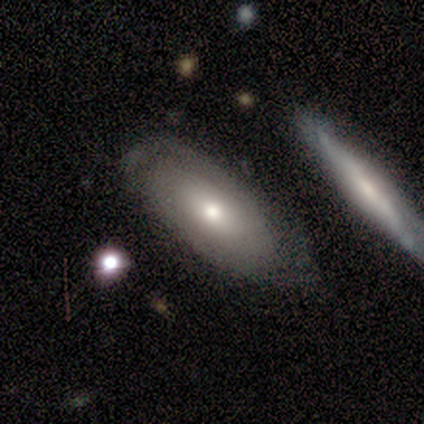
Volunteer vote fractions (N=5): Overall: smooth (60%; featured or disk 40%). How rounded: in between (100%). Merging: none (80%).